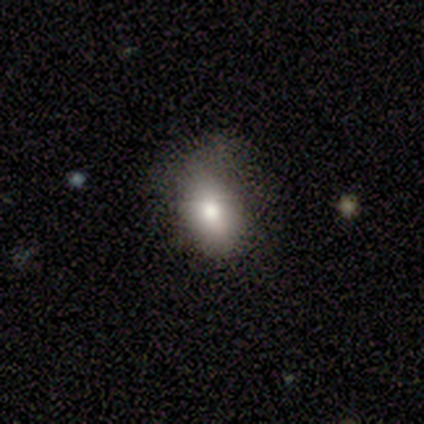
Smooth or featured? 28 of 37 (76%) said smooth. How rounded? 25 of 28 (89%) said in between. Merging? 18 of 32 (56%) said none.